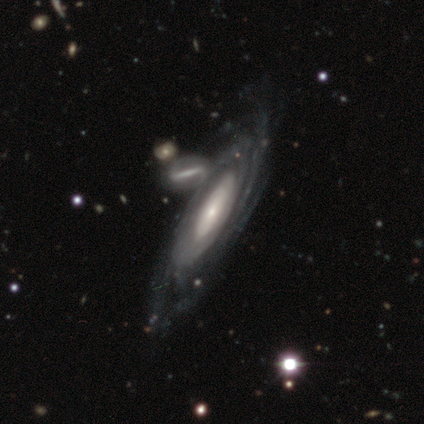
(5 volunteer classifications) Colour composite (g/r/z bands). It shows a featured or disk galaxy (100%) with a weak bar (50%), tight (100%) spiral arms (100%) and a moderate central bulge (75%). Merging: none (60%).